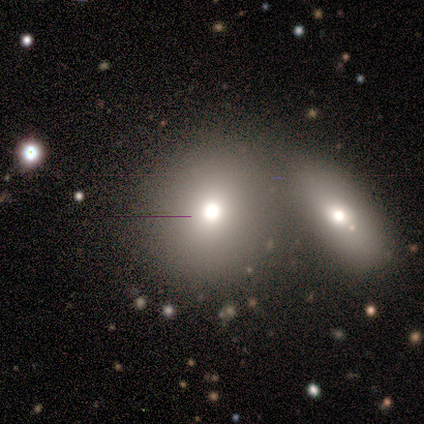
This appears to be a smooth galaxy with no disk features (83%) that is round (100%). Merging: merger (50%).